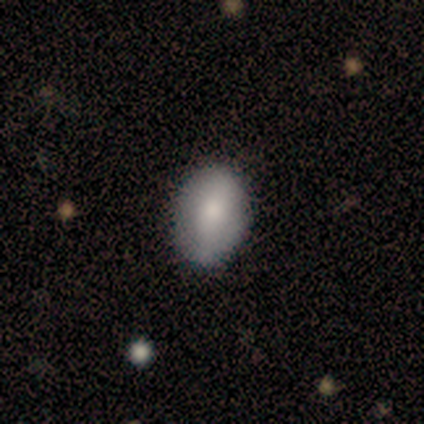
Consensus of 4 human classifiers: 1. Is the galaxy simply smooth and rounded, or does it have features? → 100% smooth, 0% featured or disk, 0% star or artifact.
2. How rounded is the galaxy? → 75% in between, 25% round, 0% cigar-shaped.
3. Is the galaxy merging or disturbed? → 75% none, 25% minor disturbance, 0% major disturbance, 0% merger.